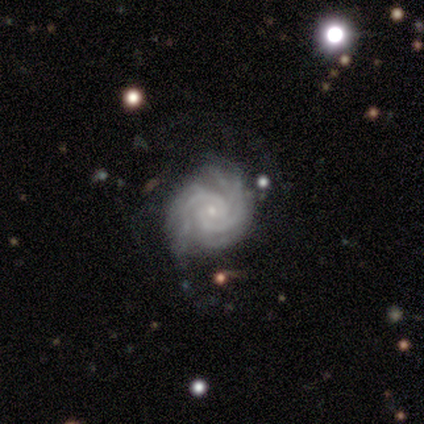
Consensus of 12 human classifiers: A featured or disk galaxy (92%) with no bar (82%), 2 (45%) tight (73%) spiral arms (100%) and a small central bulge (91%). Merging: none (75%).